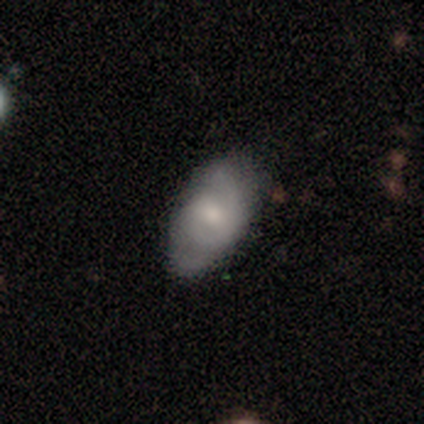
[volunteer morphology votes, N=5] smooth_or_featured: smooth (p=1.00)
how_rounded: in between (p=1.00)
merging: none (p=1.00)